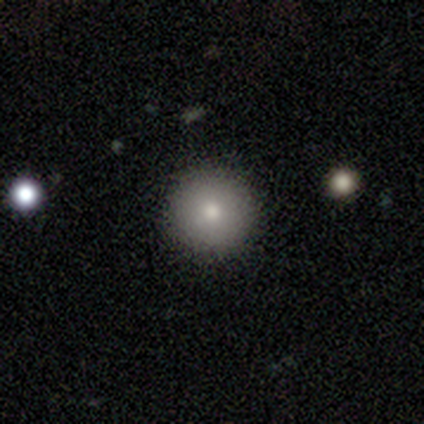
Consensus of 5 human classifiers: This is clearly a smooth galaxy (80%). How rounded: clearly round (100%). Merging: clearly none (80%).